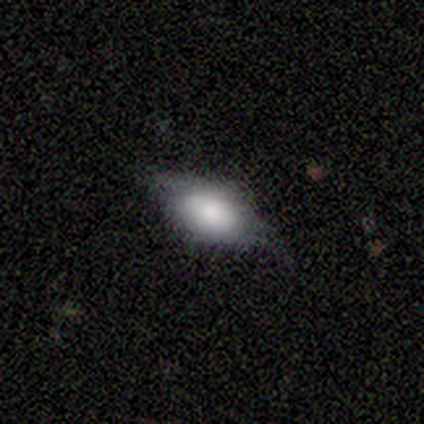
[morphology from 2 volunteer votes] Smooth or featured? smooth (50%, tied with star or artifact)
How rounded? in between (100%)
Merging? none (100%)